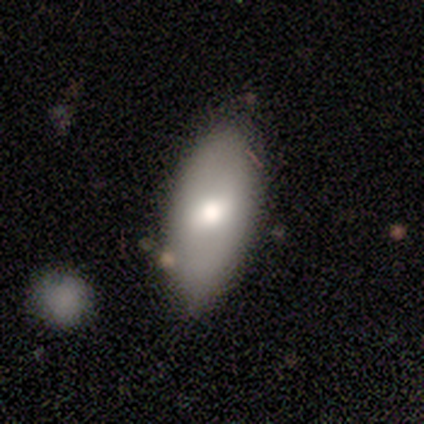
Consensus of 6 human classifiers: smooth 67%, featured or disk 33%, star or artifact 0%. Down the decision tree: how rounded — in between (75%); merging — none (83%).